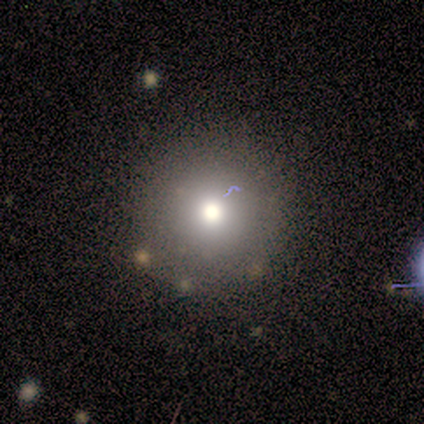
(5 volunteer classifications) smooth-or-featured: smooth: 80% | star or artifact: 20% | featured or disk: 0%
  how-rounded: round: 100% | in between: 0% | cigar-shaped: 0%
  merging: none: 100% | minor disturbance: 0% | major disturbance: 0% | merger: 0%